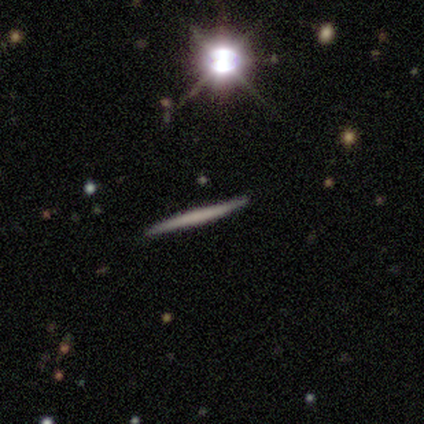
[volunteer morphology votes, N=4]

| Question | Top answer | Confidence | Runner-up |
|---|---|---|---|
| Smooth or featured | featured or disk | 75% | smooth (25%) |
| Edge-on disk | yes | 100% | — |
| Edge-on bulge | none | 100% | — |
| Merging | none | 75% | minor disturbance (25%) |